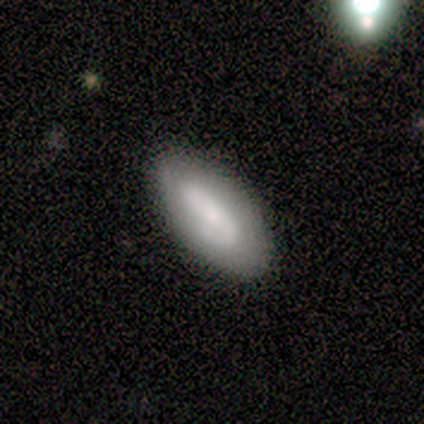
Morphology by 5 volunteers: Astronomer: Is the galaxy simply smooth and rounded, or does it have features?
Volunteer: smooth — 60% (runner-up: featured or disk, 40%).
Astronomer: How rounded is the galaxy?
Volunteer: in between — 100%.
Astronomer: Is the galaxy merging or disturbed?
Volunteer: none — 80%.